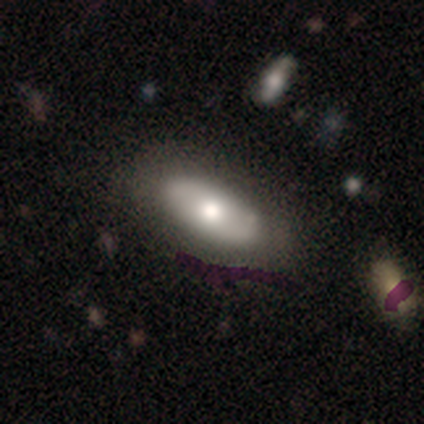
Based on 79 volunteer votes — Q: Smooth or featured?
A: smooth (56%); runner-up: featured or disk (35%)
Q: How rounded?
A: in between (93%); runner-up: round (5%)
Q: Merging?
A: none (40%); runner-up: minor disturbance (7%)